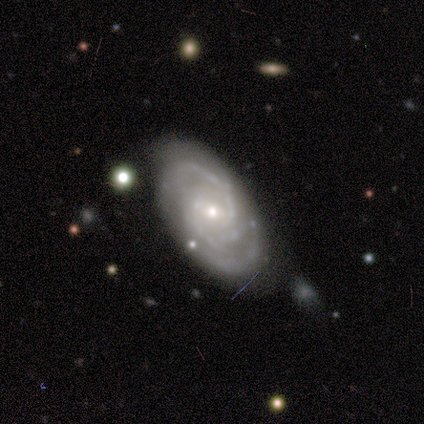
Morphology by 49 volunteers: Volunteers were most divided on "bulge size": small: 57%, moderate: 38%, large: 5%, dominant: 0%, none: 0%. More confident: spiral arms — yes (100%); edge-on disk — no (93%); smooth or featured — featured or disk (92%); merging — none (71%); spiral winding — medium (62%); spiral arm count — 2 (62%); bar — weak (60%).